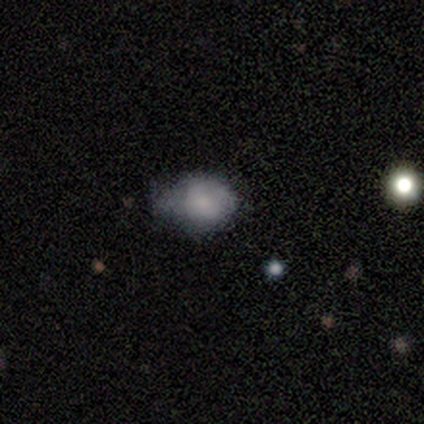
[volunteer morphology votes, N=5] smooth_or_featured: smooth (p=0.60) [alt: star or artifact p=0.40]
how_rounded: in between (p=0.67) [alt: round p=0.33]
merging: none (p=0.33) [tied with: minor disturbance p=0.33, major disturbance p=0.33]